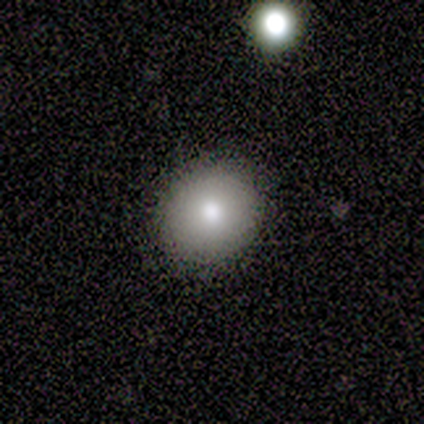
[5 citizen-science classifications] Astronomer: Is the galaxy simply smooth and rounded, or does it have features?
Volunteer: smooth — 60% (runner-up: featured or disk, 40%).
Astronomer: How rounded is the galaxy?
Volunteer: round — 100%.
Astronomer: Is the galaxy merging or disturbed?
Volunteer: none — 100%.